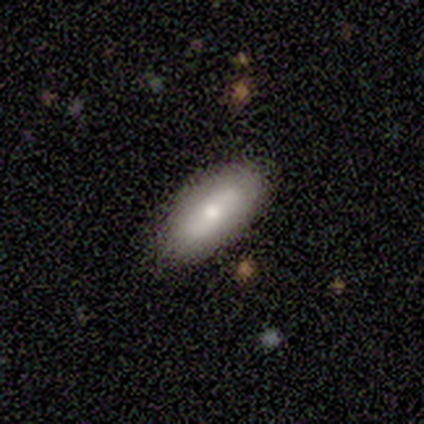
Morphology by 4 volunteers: A star or artifact, not a galaxy (75%).

Vote fractions:
- Smooth or featured? star or artifact: 75% / smooth: 25% / featured or disk: 0%